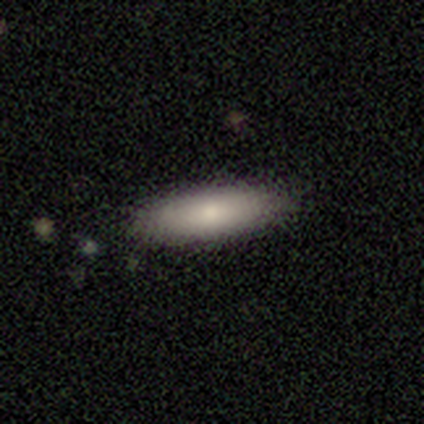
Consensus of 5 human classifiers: Smooth or featured: smooth — 80% (featured or disk — 20%)
How rounded: in between — 50% (tied with cigar-shaped — 50%)
Merging: none — 80% (minor disturbance — 20%)